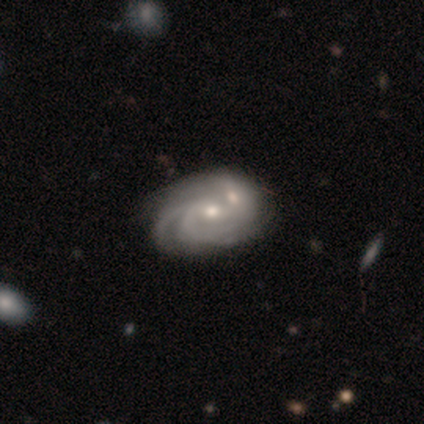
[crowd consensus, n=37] featured or disk 95%, star or artifact 5%, smooth 0%. Down the decision tree: edge-on disk — no (100%); bar — no (60%); spiral arms — yes (94%); spiral arm count — 3 (33%); spiral winding — tight (45%); bulge size — moderate (54%); merging — merger (49%).